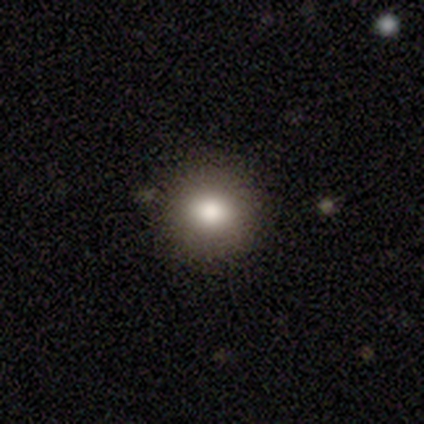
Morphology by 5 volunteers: Smooth or featured? smooth (80%)
How rounded? round (75%)
Merging? none (100%)